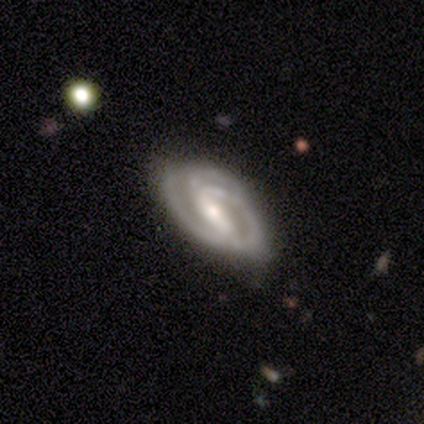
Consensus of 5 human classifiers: Smooth or featured? 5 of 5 (100%) said featured or disk. Edge-on disk? 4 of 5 (80%) said no. Bar? 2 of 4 (50%) said strong. Spiral arms? 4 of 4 (100%) said yes. Spiral winding? 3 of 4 (75%) said tight. Spiral arm count? 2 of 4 (50%, tied with can't tell) said 2. Bulge size? 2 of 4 (50%) said small. Merging? 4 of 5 (80%) said none.